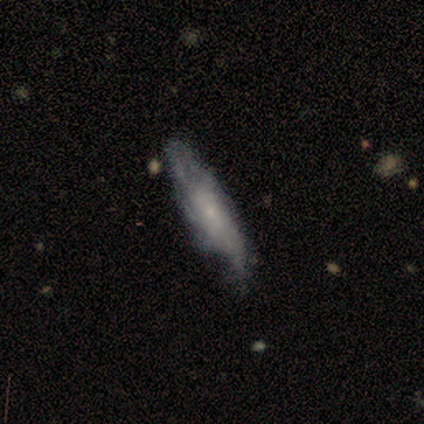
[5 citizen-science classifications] A featured or disk galaxy (100%) with no bar (100%), 3 (50%, tied with can't tell) medium (100%) spiral arms (67%) and a moderate central bulge (67%).

Vote fractions:
- Smooth or featured? featured or disk: 100% / smooth: 0% / star or artifact: 0%
- Edge-on disk? no: 60% / yes: 40%
- Bar? no: 100% / strong: 0% / weak: 0%
- Spiral arms? yes: 67% / no: 33%
- Spiral winding? medium: 100% / tight: 0% / loose: 0%
- Spiral arm count? 3: 50% (tied) / can't tell: 50% (tied) / 1: 0% / 2: 0% / 4: 0% / more than 4: 0%
- Bulge size? moderate: 67% / small: 33% / dominant: 0% / large: 0% / none: 0%
- Merging? none: 40% (tied) / minor disturbance: 40% (tied) / major disturbance: 20% / merger: 0%